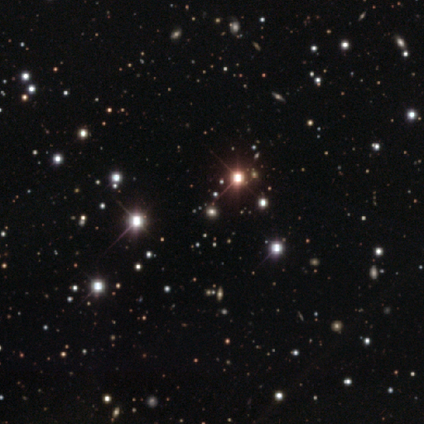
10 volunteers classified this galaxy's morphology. smooth_or_featured: star or artifact (p=0.80) [alt: smooth p=0.10]